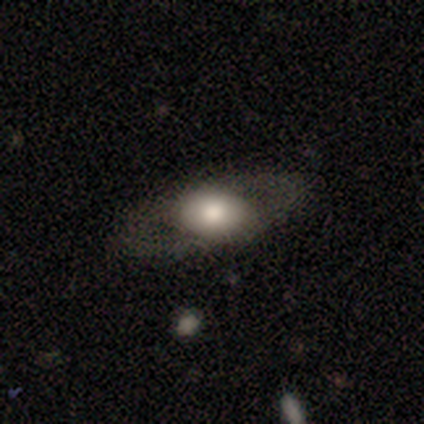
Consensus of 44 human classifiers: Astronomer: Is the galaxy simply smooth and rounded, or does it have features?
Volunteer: featured or disk — 50% (runner-up: smooth, 48%).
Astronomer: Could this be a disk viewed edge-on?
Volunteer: no — 82%.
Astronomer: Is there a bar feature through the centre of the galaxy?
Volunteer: no — 83%.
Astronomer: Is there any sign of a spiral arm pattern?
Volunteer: no — 89%.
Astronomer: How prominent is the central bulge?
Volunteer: large — 72%.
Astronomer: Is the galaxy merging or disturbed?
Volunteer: none — 88%.